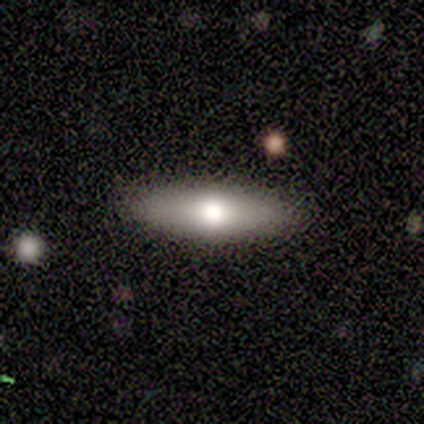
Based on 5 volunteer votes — smooth-or-featured: featured or disk: 60% | smooth: 20% | star or artifact: 20%
  disk-edge-on: yes: 100% | no: 0%
    edge-on-bulge: rounded: 100% | boxy: 0% | none: 0%
  merging: none: 100% | minor disturbance: 0% | major disturbance: 0% | merger: 0%